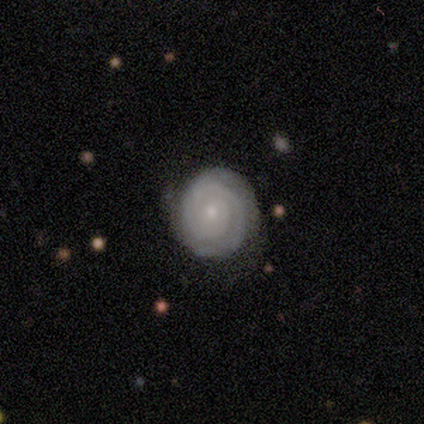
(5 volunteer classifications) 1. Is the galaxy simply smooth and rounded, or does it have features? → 100% featured or disk, 0% smooth, 0% star or artifact.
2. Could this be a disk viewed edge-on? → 100% no, 0% yes.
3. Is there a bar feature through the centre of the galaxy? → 80% no, 20% strong, 0% weak.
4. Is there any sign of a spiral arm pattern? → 100% yes, 0% no.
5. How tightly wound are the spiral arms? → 80% tight, 20% medium, 0% loose.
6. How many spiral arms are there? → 40% 2 (tied), 40% can't tell (tied), 20% 1, 0% 3, 0% 4, 0% more than 4.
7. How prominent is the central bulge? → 80% small, 20% moderate, 0% dominant, 0% large, 0% none.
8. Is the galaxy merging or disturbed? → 80% none, 20% minor disturbance, 0% major disturbance, 0% merger.